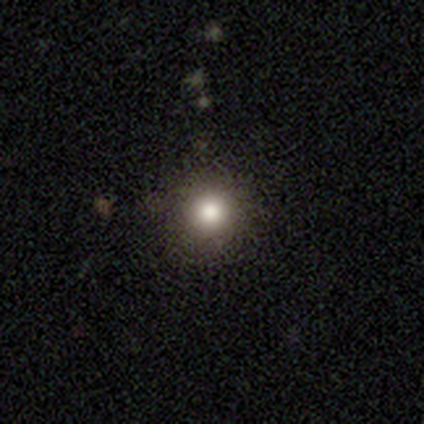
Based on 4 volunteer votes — This is clearly a smooth galaxy (100%). How rounded: clearly round (100%). Merging: clearly none (100%).